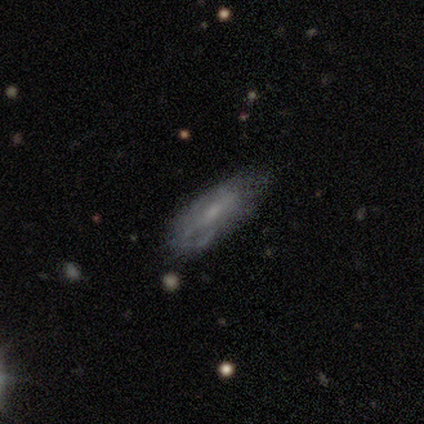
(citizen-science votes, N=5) Smooth or featured? featured or disk (60%)
Edge-on disk? no (100%)
Bar? weak (100%)
Spiral arms? yes (67%)
Spiral winding? tight (50%, tied with medium)
Spiral arm count? can't tell (100%)
Bulge size? moderate (67%)
Merging? none (60%)